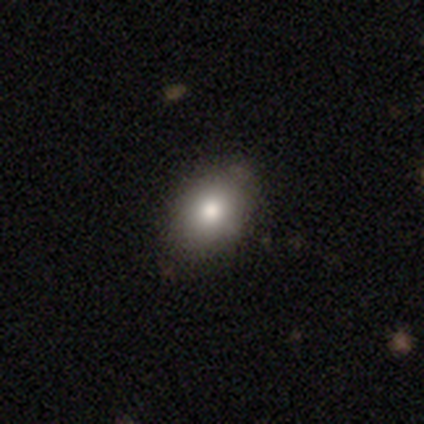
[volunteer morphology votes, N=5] This is clearly a smooth galaxy (100%). How rounded: clearly in between (80%). Merging: clearly none (100%).